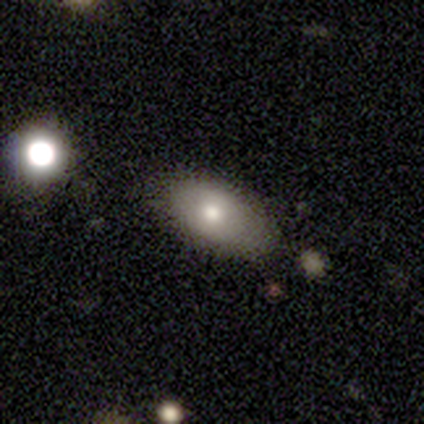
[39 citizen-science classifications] This is clearly a smooth galaxy (85%). How rounded: clearly in between (85%). Merging: likely none (67%).